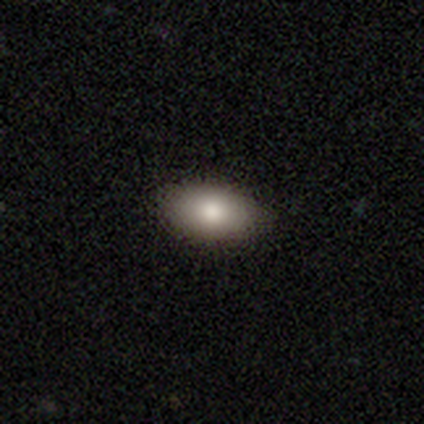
This is likely a smooth galaxy (67%). How rounded: clearly in between (100%). Merging: clearly none (100%).